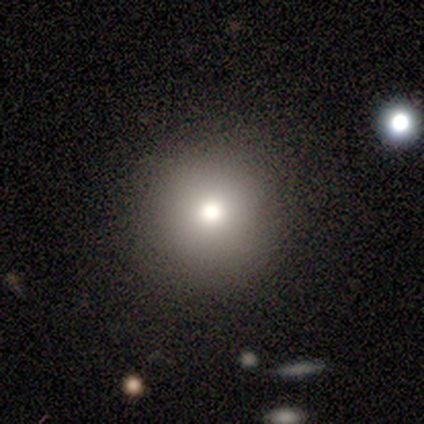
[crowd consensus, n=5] This is clearly a smooth galaxy (80%). How rounded: clearly round (100%). Merging: clearly none (100%).